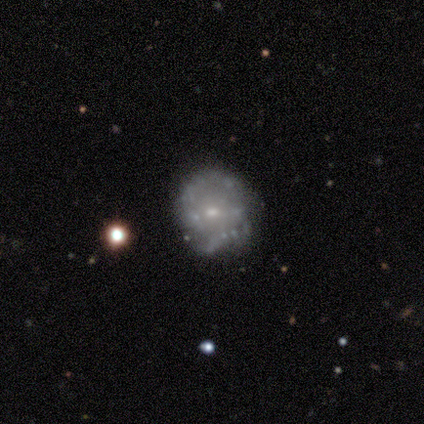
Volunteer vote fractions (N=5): Smooth or featured? featured or disk (80%)
Edge-on disk? no (100%)
Bar? no (75%)
Spiral arms? yes (50%, tied with no)
Spiral winding? loose (100%)
Spiral arm count? 2 (50%, tied with can't tell)
Bulge size? small (50%)
Merging? none (80%)